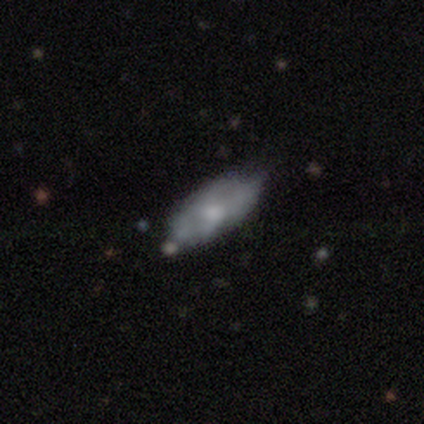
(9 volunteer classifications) Morphology: type=smooth (67%); roundness=in between (100%); merging=none (56%).